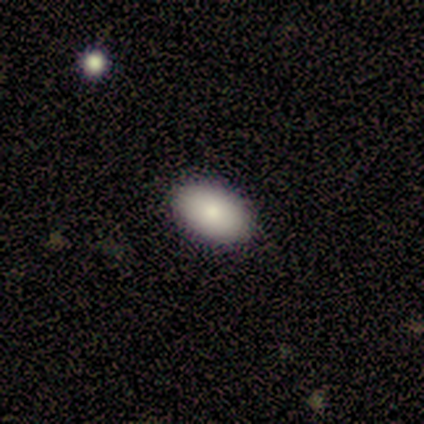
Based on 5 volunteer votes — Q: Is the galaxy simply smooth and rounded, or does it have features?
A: smooth — 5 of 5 (100%).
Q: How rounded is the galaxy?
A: in between — 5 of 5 (100%).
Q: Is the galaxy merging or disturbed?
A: none — 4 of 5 (80%).